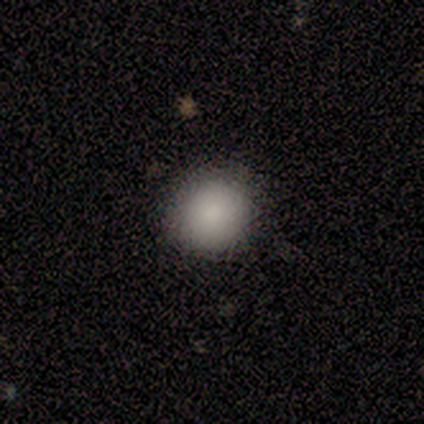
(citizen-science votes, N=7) Q: Smooth or featured?
A: smooth (86%); runner-up: featured or disk (14%)
Q: How rounded?
A: round (100%)
Q: Merging?
A: none (100%)